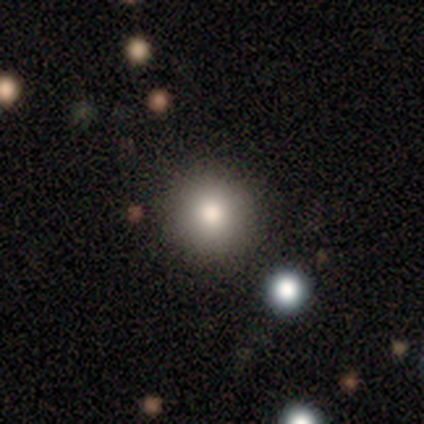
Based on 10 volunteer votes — Overall: smooth (70%). How rounded: round (100%). Merging: none (100%).